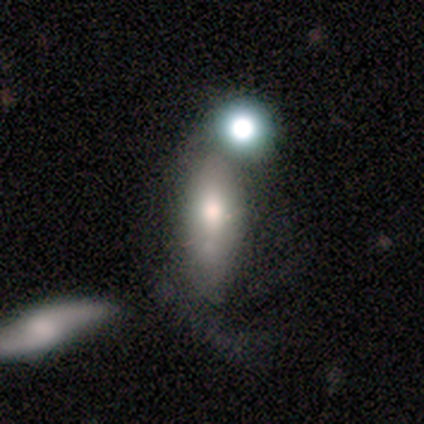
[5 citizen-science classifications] A smooth galaxy with no disk features (100%) that is in between round and cigar-shaped (100%). Merging: minor disturbance (40%).